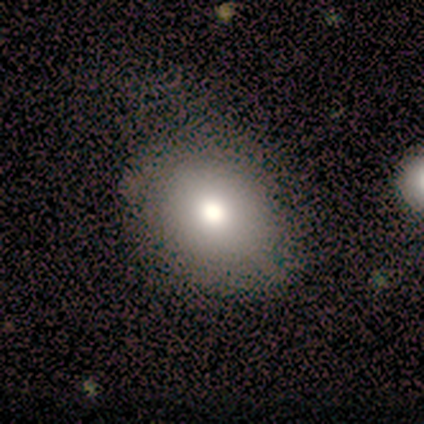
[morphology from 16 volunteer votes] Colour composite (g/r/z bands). It shows a smooth galaxy with no disk features (62%) that is in between round and cigar-shaped (90%). Merging: none (42%, tied with minor disturbance).